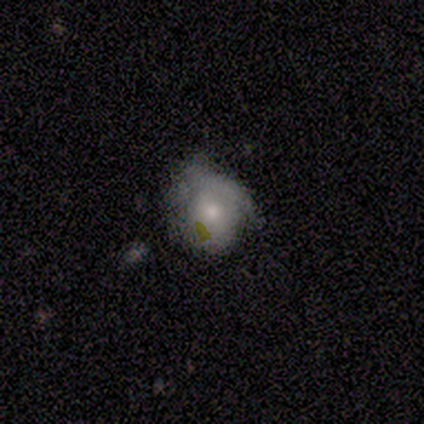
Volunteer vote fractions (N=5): Q: Smooth or featured?
A: smooth (60%); runner-up: featured or disk (40%)
Q: How rounded?
A: round (100%)
Q: Merging?
A: minor disturbance (40%); tied with: major disturbance (40%)